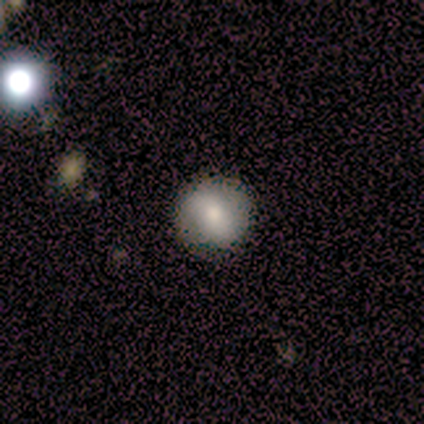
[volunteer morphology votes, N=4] smooth_or_featured: smooth (p=0.75) [alt: featured or disk p=0.25]
how_rounded: round (p=1.00)
merging: none (p=1.00)